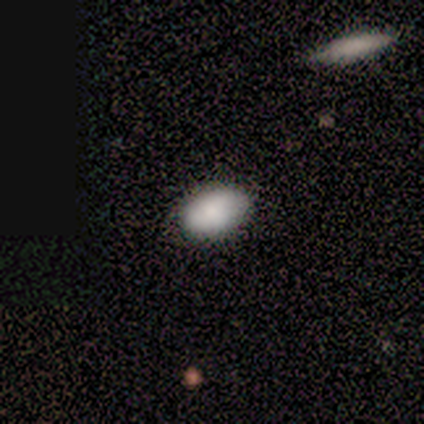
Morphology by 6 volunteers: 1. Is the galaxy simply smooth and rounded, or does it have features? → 100% smooth, 0% featured or disk, 0% star or artifact.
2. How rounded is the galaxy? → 100% in between, 0% round, 0% cigar-shaped.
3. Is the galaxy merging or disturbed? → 50% none (tied), 50% minor disturbance (tied), 0% major disturbance, 0% merger.